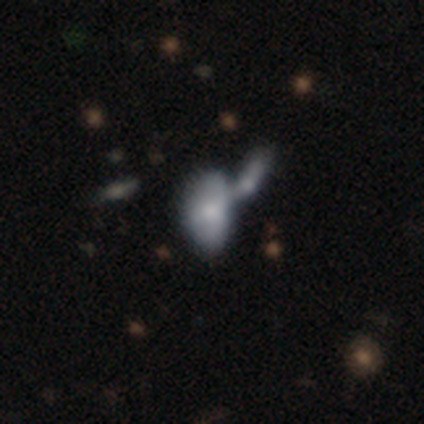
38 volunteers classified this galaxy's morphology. Overall: smooth (58%; featured or disk 29%). How rounded: in between (91%). Merging: merger (67%).